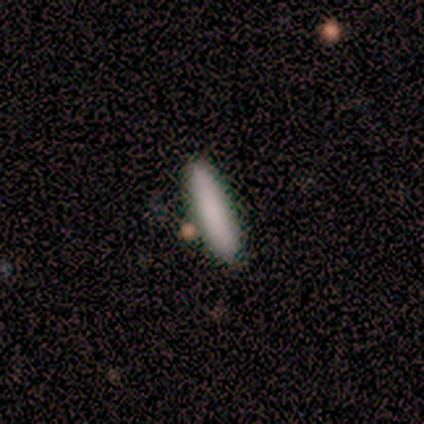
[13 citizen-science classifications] Overall: smooth (69%). How rounded: cigar-shaped (89%). Merging: none (92%).